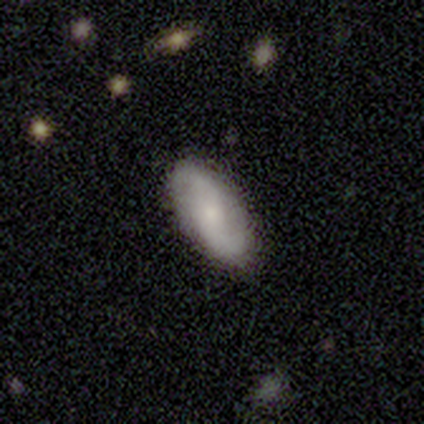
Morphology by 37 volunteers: A featured or disk galaxy (57%) with a weak bar (42%), 2 (94%) loose (67%) spiral arms (95%) and a small central bulge (74%).

Vote fractions:
- Smooth or featured? featured or disk: 57% / smooth: 41% / star or artifact: 3%
- Edge-on disk? no: 90% / yes: 10%
- Bar? weak: 42% / no: 37% / strong: 21%
- Spiral arms? yes: 95% / no: 5%
- Spiral winding? loose: 67% / medium: 28% / tight: 6%
- Spiral arm count? 2: 94% / can't tell: 6% / 1: 0% / 3: 0% / 4: 0% / more than 4: 0%
- Bulge size? small: 74% / moderate: 21% / none: 5% / dominant: 0% / large: 0%
- Merging? none: 78% / minor disturbance: 17% / major disturbance: 6% / merger: 0%